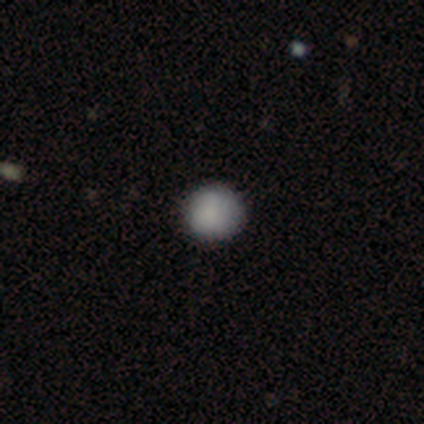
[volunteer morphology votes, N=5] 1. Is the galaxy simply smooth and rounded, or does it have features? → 80% smooth, 20% featured or disk, 0% star or artifact.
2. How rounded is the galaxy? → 100% round, 0% in between, 0% cigar-shaped.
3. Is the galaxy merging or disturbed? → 100% none, 0% minor disturbance, 0% major disturbance, 0% merger.